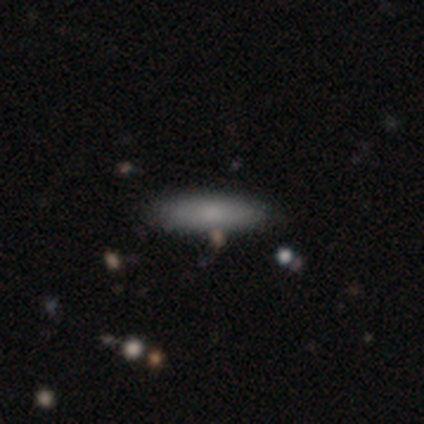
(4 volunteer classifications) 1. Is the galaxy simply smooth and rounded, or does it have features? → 100% smooth, 0% featured or disk, 0% star or artifact.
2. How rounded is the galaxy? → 75% cigar-shaped, 25% in between, 0% round.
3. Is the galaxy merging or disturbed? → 50% minor disturbance, 25% none, 25% major disturbance, 0% merger.